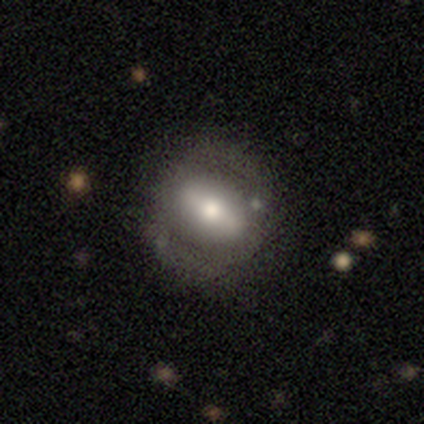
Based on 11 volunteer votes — Volunteers were most divided on "smooth or featured": featured or disk: 73%, smooth: 27%, star or artifact: 0%. More confident: bar — strong (83%); spiral arms — no (83%); merging — none (82%); edge-on disk — no (75%); bulge size — moderate (67%).